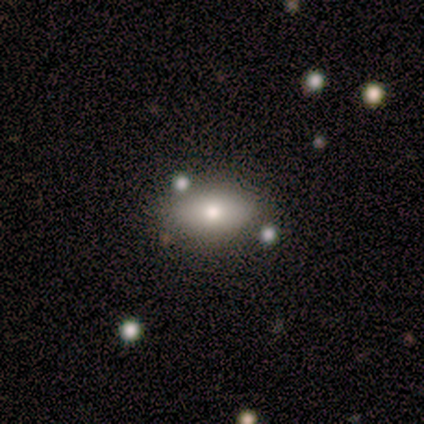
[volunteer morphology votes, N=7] smooth 43% (tied), featured or disk 43% (tied), star or artifact 14%. Down the decision tree: how rounded — in between (100%); merging — none (100%).